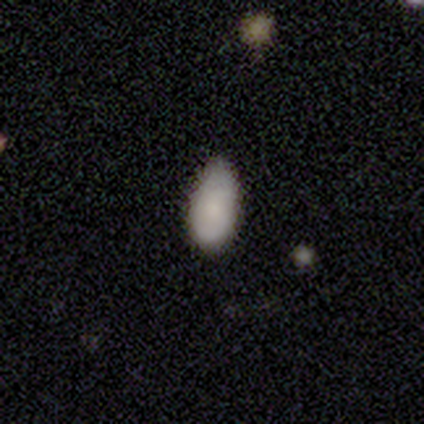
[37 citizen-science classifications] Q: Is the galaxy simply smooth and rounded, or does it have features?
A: smooth — 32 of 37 (86%).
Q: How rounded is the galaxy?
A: in between — 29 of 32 (91%).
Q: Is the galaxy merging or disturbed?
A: none — 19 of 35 (54%).